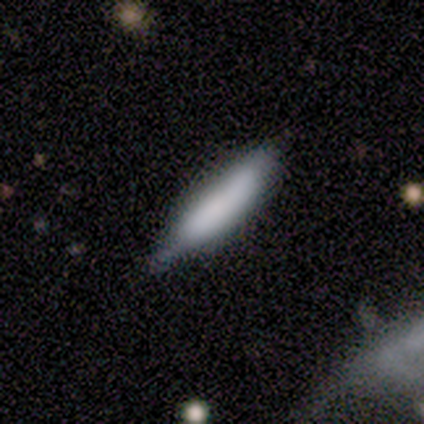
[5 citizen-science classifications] smooth_or_featured: smooth (p=1.00)
how_rounded: cigar-shaped (p=0.80) [alt: in between p=0.20]
merging: none (p=0.80) [alt: major disturbance p=0.20]